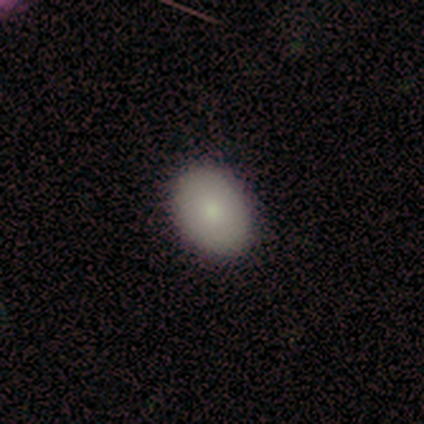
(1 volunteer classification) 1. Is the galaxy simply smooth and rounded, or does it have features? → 100% featured or disk, 0% smooth, 0% star or artifact.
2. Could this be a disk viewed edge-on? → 100% no, 0% yes.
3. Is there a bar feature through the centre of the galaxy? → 100% no, 0% strong, 0% weak.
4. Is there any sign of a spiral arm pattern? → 100% no, 0% yes.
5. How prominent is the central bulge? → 100% small, 0% dominant, 0% large, 0% moderate, 0% none.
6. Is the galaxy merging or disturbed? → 100% none, 0% minor disturbance, 0% major disturbance, 0% merger.